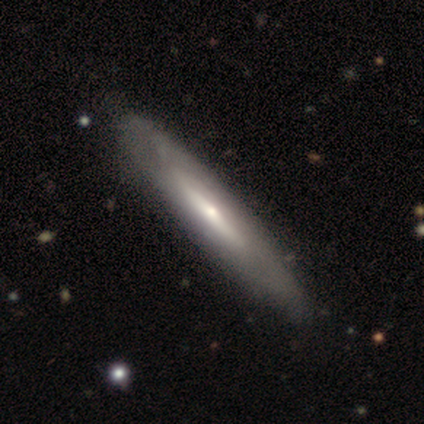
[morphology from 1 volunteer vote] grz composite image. It shows a smooth galaxy with no disk features (100%) that is cigar-shaped (100%). Merging: minor disturbance (100%).